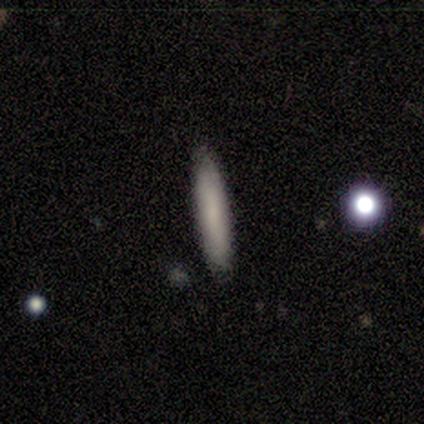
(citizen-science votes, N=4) A smooth galaxy with no disk features (50%, tied with featured or disk) that is cigar-shaped (100%). Merging: none (100%).